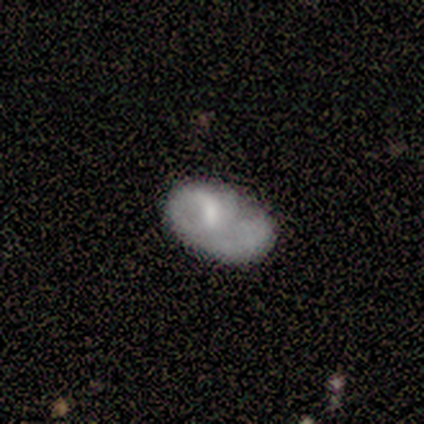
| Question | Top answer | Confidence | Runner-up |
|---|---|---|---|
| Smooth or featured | smooth | 80% | featured or disk (20%) |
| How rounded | in between | 100% | — |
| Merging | none | 40% | tied: minor disturbance (40%) |